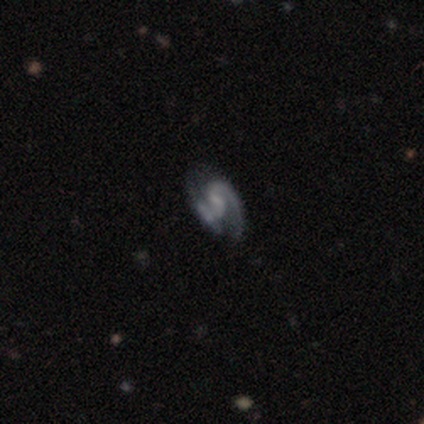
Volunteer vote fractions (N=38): Morphology: type=featured or disk (87%); edge-on=no (100%); bar=weak (58%); spiral arms=yes (97%); winding=tight (41%); arm count=2 (69%); bulge=none (48%); merging=none (51%).